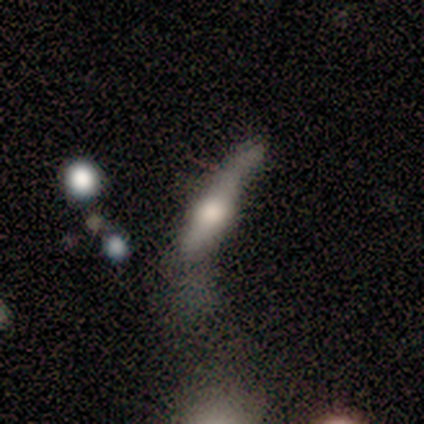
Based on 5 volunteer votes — smooth-or-featured: smooth: 60% | featured or disk: 20% | star or artifact: 20%
  how-rounded: cigar-shaped: 100% | round: 0% | in between: 0%
  merging: major disturbance: 50% | none: 25% | minor disturbance: 25% | merger: 0%